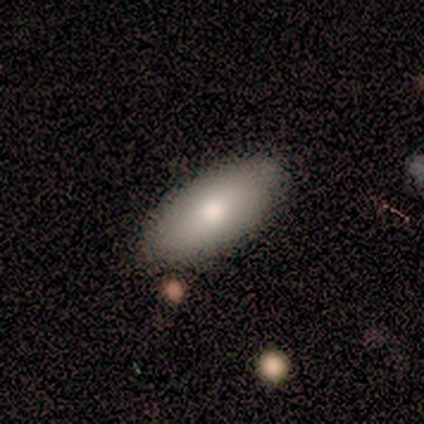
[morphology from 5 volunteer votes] Q: Smooth or featured?
A: smooth (80%); runner-up: featured or disk (20%)
Q: How rounded?
A: in between (75%); runner-up: cigar-shaped (25%)
Q: Merging?
A: none (100%)